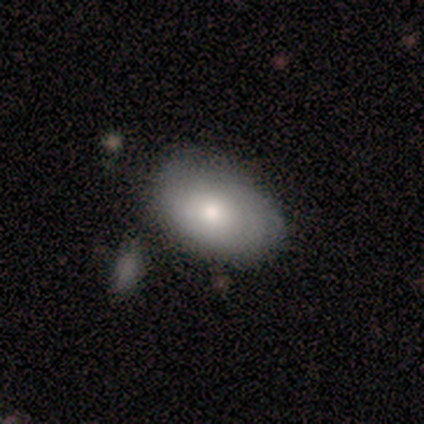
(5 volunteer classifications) Morphology: type=smooth (80%); roundness=in between (100%); merging=minor disturbance (60%).